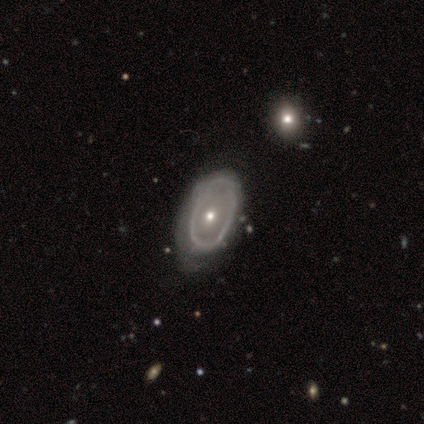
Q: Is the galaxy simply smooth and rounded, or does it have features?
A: featured or disk — 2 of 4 (50%).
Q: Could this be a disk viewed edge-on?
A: no — 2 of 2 (100%).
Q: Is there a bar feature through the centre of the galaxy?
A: no — 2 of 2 (100%).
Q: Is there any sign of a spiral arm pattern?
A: no — 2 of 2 (100%).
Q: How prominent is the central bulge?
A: moderate — 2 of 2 (100%).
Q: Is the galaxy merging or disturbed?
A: none — 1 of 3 (33%, tied with minor disturbance and merger).